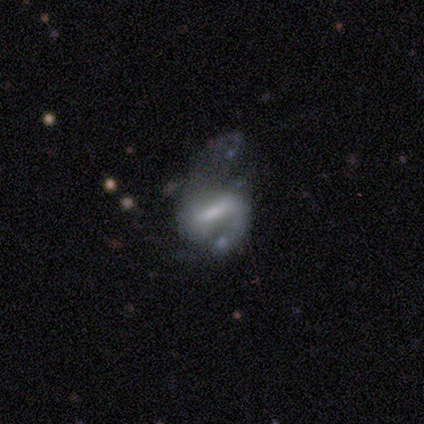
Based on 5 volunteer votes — Q: Smooth or featured?
A: featured or disk (80%); runner-up: smooth (20%)
Q: Edge-on disk?
A: no (100%)
Q: Bar?
A: strong (75%); runner-up: weak (25%)
Q: Spiral arms?
A: yes (50%); tied with: no (50%)
Q: Spiral winding?
A: medium (100%)
Q: Spiral arm count?
A: 2 (100%)
Q: Bulge size?
A: moderate (50%); runner-up: small (25%)
Q: Merging?
A: none (40%); runner-up: minor disturbance (20%)